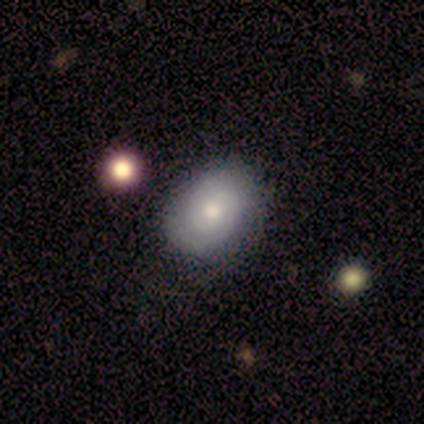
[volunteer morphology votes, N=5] Smooth or featured?
  - featured or disk: 80% *
  - smooth: 20%
  - star or artifact: 0%
Edge-on disk?
  - no: 100% *
  - yes: 0%
Bar?
  - no: 100% *
  - strong: 0%
  - weak: 0%
Spiral arms?
  - yes: 50% * (tied)
  - no: 50% * (tied)
Spiral winding?
  - tight: 100% *
  - medium: 0%
  - loose: 0%
Spiral arm count?
  - 2: 50% * (tied)
  - can't tell: 50% * (tied)
  - 1: 0%
  - 3: 0%
  - 4: 0%
  - more than 4: 0%
Bulge size?
  - large: 50% *
  - moderate: 25%
  - small: 25%
  - dominant: 0%
  - none: 0%
Merging?
  - none: 100% *
  - minor disturbance: 0%
  - major disturbance: 0%
  - merger: 0%